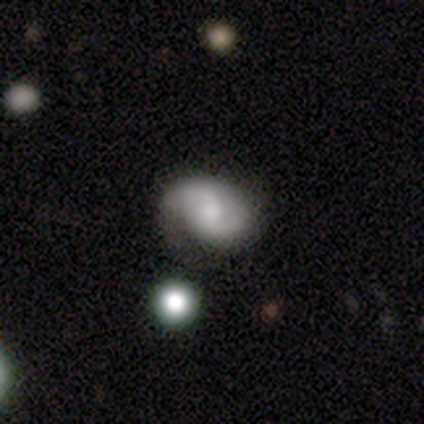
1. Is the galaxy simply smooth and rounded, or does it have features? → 62% featured or disk, 30% smooth, 8% star or artifact.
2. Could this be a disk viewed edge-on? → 100% no, 0% yes.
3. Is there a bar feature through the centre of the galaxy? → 48% no, 43% weak, 9% strong.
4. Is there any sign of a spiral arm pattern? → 96% yes, 4% no.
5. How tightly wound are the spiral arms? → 50% medium, 27% loose, 23% tight.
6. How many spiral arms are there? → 82% 2, 9% 1, 9% can't tell, 0% 3, 0% 4, 0% more than 4.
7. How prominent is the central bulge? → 52% moderate, 17% large, 17% small, 9% none, 4% dominant.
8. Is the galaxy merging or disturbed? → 59% none, 24% minor disturbance, 12% major disturbance, 6% merger.